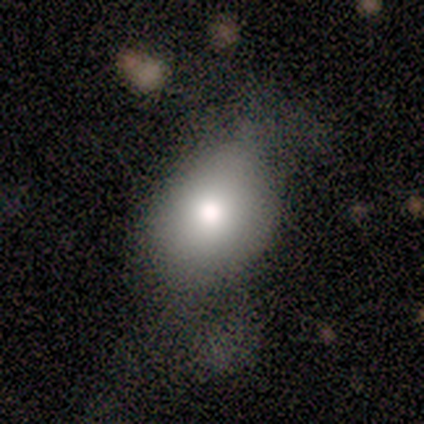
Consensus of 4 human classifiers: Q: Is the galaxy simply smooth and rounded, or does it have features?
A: smooth — 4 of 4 (100%).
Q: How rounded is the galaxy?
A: in between — 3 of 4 (75%).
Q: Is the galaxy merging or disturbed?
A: none — 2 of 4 (50%).